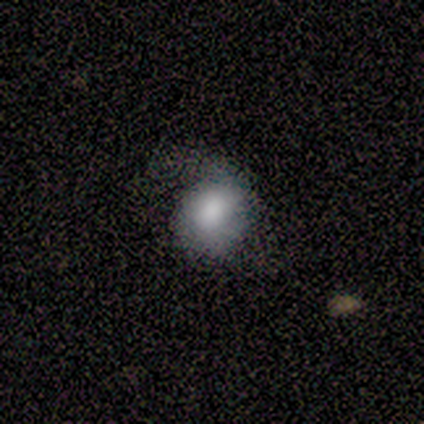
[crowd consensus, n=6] This appears to be a featured or disk galaxy (50%) with no bar (100%), 2 (67%) tight (33%, tied with medium and loose) spiral arms (100%) and a large central bulge (33%, tied with moderate and small). Merging: none (80%).